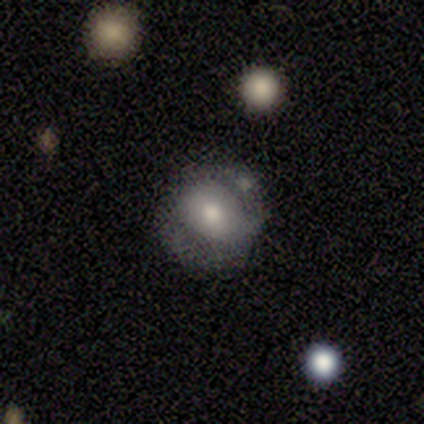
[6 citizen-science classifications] Smooth or featured? 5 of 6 (83%) said featured or disk. Edge-on disk? 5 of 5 (100%) said no. Bar? 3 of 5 (60%) said no. Spiral arms? 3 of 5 (60%) said yes. Spiral winding? 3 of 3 (100%) said medium. Spiral arm count? 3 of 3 (100%) said 2. Bulge size? 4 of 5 (80%) said moderate. Merging? 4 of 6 (67%) said none.